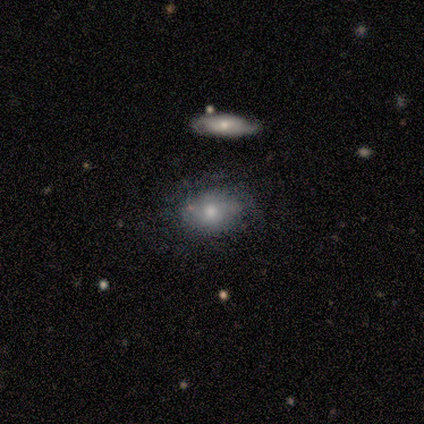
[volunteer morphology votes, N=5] Overall: smooth (40%, tied with featured or disk). How rounded: in between (100%). Merging: none (50%; major disturbance 25%).